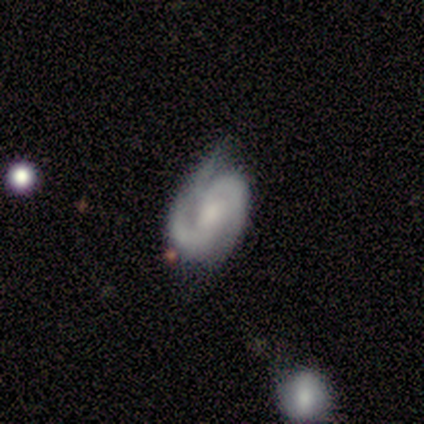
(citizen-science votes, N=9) Volunteers were most divided on "bulge size" (3-way tie): moderate: 29%, small: 29%, none: 29%, large: 14%, dominant: 0%. More confident: edge-on disk — no (100%); spiral arms — yes (100%); spiral arm count — 2 (100%); spiral winding — medium (86%); smooth or featured — featured or disk (78%); bar — no (57%); merging — minor disturbance (56%).